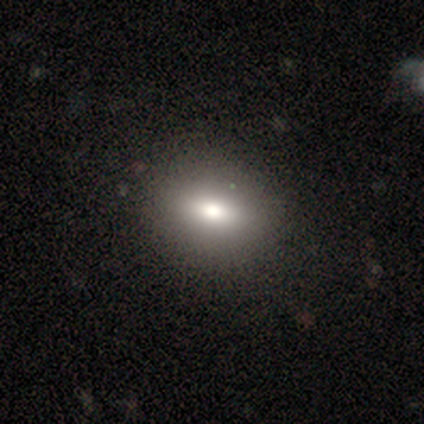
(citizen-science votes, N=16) Volunteers were most divided on "how rounded": in between: 75%, round: 25%, cigar-shaped: 0%. More confident: merging — none (80%); smooth or featured — smooth (75%).